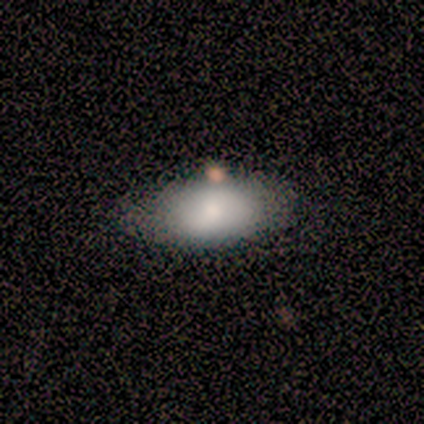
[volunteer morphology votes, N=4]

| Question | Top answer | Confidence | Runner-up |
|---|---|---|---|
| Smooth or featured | smooth | 75% | star or artifact (25%) |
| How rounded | in between | 67% | cigar-shaped (33%) |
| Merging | none | 100% | — |